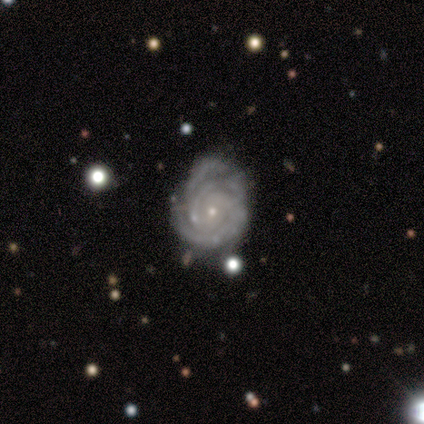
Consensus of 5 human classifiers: smooth_or_featured: featured or disk (p=0.80) [alt: smooth p=0.20]
disk_edge_on: no (p=1.00)
bar: no (p=1.00)
has_spiral_arms: yes (p=1.00)
spiral_winding: tight (p=0.75) [alt: medium p=0.25]
spiral_arm_count: 3 (p=0.50) [alt: 2 p=0.25]
bulge_size: small (p=1.00)
merging: none (p=0.60) [alt: minor disturbance p=0.20]